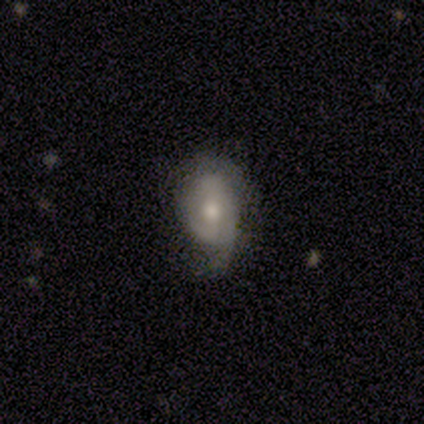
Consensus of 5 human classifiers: A featured or disk galaxy (60%) with no bar (100%), 2 (67%) loose (67%) spiral arms (100%) and a moderate central bulge (67%).

Vote fractions:
- Smooth or featured? featured or disk: 60% / smooth: 40% / star or artifact: 0%
- Edge-on disk? no: 100% / yes: 0%
- Bar? no: 100% / strong: 0% / weak: 0%
- Spiral arms? yes: 100% / no: 0%
- Spiral winding? loose: 67% / medium: 33% / tight: 0%
- Spiral arm count? 2: 67% / 1: 33% / 3: 0% / 4: 0% / more than 4: 0% / can't tell: 0%
- Bulge size? moderate: 67% / small: 33% / dominant: 0% / large: 0% / none: 0%
- Merging? none: 40% (tied) / minor disturbance: 40% (tied) / major disturbance: 20% / merger: 0%